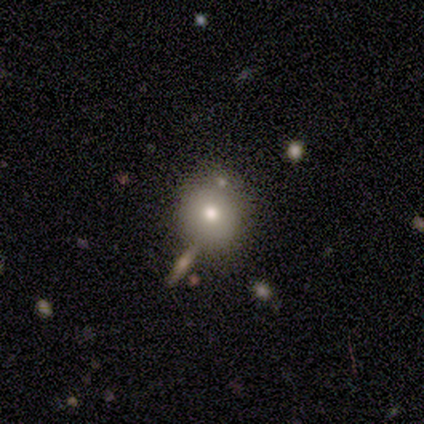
smooth 100%, featured or disk 0%, star or artifact 0%. Down the decision tree: how rounded — round (100%); merging — none (60%).